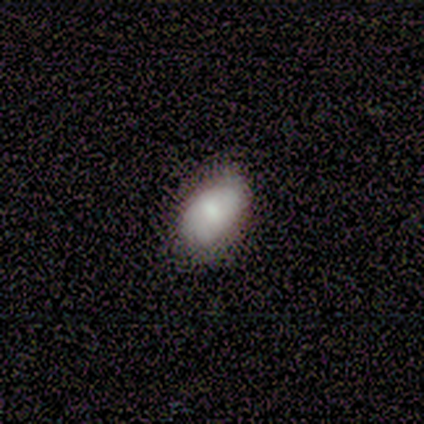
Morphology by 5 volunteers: Smooth or featured? featured or disk (60%)
Edge-on disk? no (100%)
Bar? no (100%)
Spiral arms? yes (67%)
Spiral winding? tight (50%, tied with medium)
Spiral arm count? can't tell (100%)
Bulge size? small (67%)
Merging? none (80%)